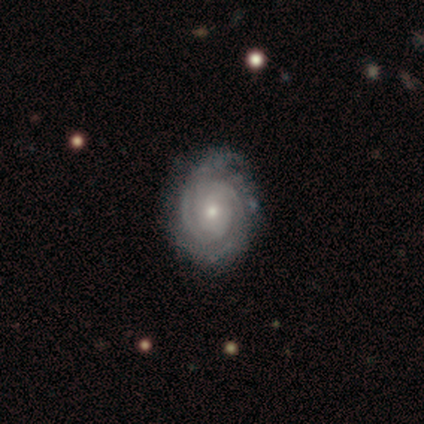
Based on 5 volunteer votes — Volunteers were most divided on "spiral arm count" (2-way tie): 2: 40%, 3: 40%, can't tell: 20%, 1: 0%, 4: 0%, more than 4: 0%. More confident: smooth or featured — featured or disk (100%); edge-on disk — no (100%); bar — no (100%); spiral arms — yes (100%); spiral winding — tight (100%); merging — none (80%); bulge size — small (60%).